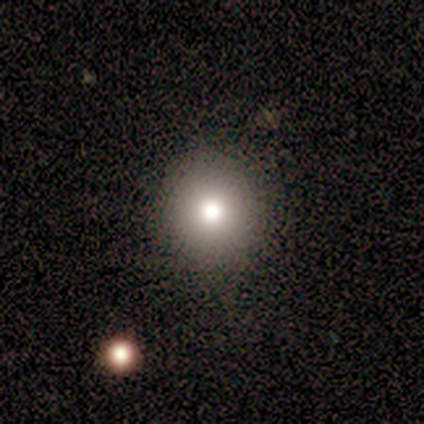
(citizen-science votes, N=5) A smooth galaxy with no disk features (60%) that is round (100%). Merging: none (100%).